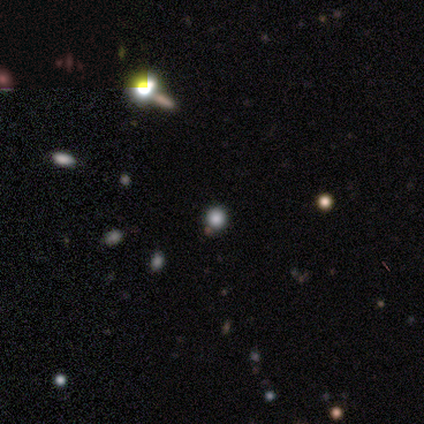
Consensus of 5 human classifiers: A star or artifact, not a galaxy (60%).

Vote fractions:
- Smooth or featured? star or artifact: 60% / smooth: 40% / featured or disk: 0%